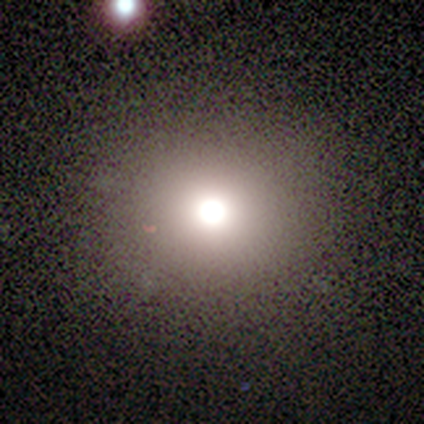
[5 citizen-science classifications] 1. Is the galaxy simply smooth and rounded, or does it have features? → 80% smooth, 20% star or artifact, 0% featured or disk.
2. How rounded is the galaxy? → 100% round, 0% in between, 0% cigar-shaped.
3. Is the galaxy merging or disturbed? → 100% none, 0% minor disturbance, 0% major disturbance, 0% merger.